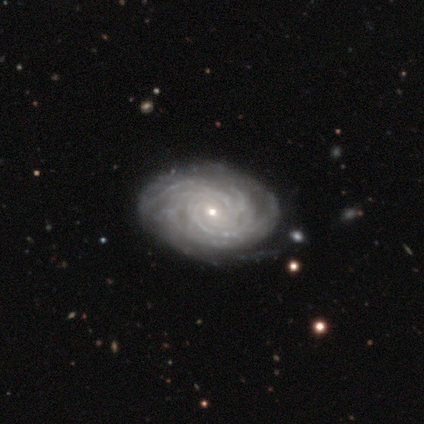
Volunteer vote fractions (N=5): This appears to be a featured or disk galaxy (80%) with no bar (100%), tight (100%) spiral arms (100%) and a small central bulge (75%). Merging: none (75%).